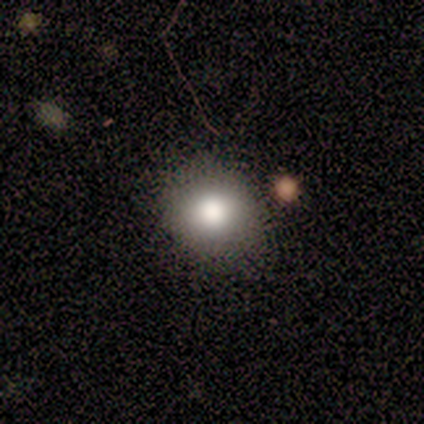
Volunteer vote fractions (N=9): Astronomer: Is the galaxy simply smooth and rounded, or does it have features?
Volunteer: smooth — 78%.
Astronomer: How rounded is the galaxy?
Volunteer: round — 71%.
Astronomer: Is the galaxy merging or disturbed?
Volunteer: none — 100%.